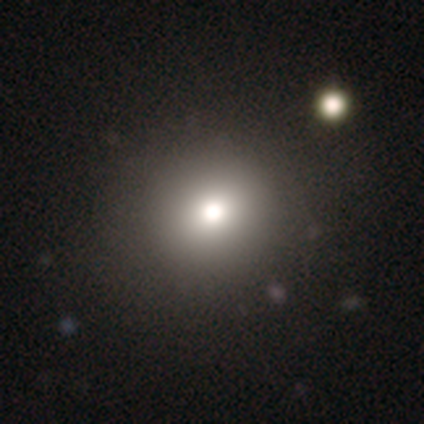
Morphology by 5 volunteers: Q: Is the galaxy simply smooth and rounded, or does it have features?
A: smooth — 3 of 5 (60%).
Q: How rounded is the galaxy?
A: round — 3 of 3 (100%).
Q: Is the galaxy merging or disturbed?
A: none — 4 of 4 (100%).